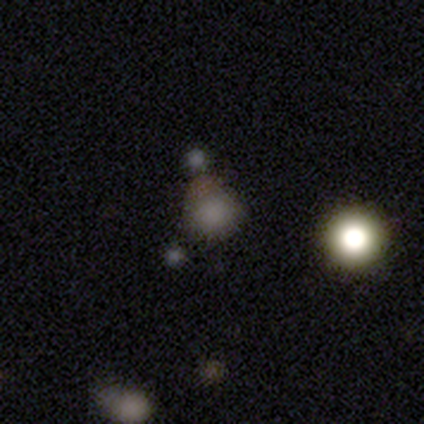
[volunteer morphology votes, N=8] A smooth galaxy with no disk features (88%) that is round (71%).

Vote fractions:
- Smooth or featured? smooth: 88% / featured or disk: 12% / star or artifact: 0%
- How rounded? round: 71% / in between: 29% / cigar-shaped: 0%
- Merging? none: 38% / minor disturbance: 25% / merger: 25% / major disturbance: 12%